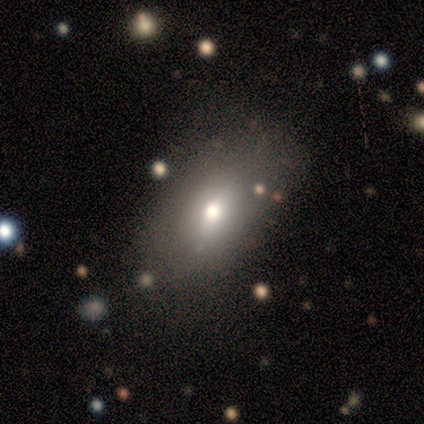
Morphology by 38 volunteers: Volunteers were most divided on "merging": none: 78%, minor disturbance: 19%, major disturbance: 3%, merger: 0%. More confident: smooth or featured — smooth (92%); how rounded — in between (77%).